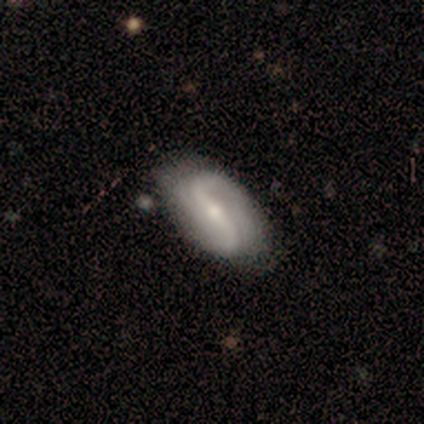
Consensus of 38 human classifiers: smooth-or-featured: featured or disk: 89% | smooth: 11% | star or artifact: 0%
  disk-edge-on: no: 97% | yes: 3%
    bar: weak: 48% | strong: 39% | no: 12%
    has-spiral-arms: yes: 94% | no: 6%
      spiral-winding: loose: 61% | medium: 39% | tight: 0%
      spiral-arm-count: 2: 81% | can't tell: 13% | 1: 3% | 3: 3% | 4: 0% | more than 4: 0%
    bulge-size: small: 55% | moderate: 39% | dominant: 3% | large: 3% | none: 0%
  merging: none: 84% | minor disturbance: 16% | major disturbance: 0% | merger: 0%